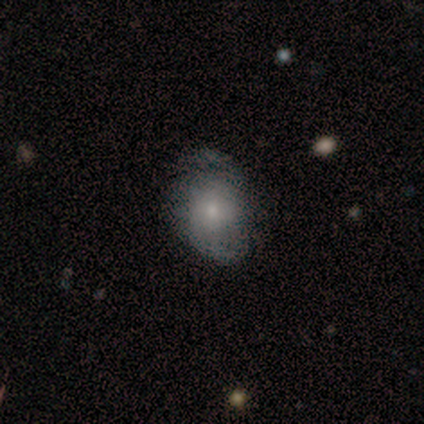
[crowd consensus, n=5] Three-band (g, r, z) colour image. It shows a featured or disk galaxy (80%) with no bar (75%), 2 (75%) tight (75%) spiral arms (100%) and a small central bulge (75%). Merging: none (100%).